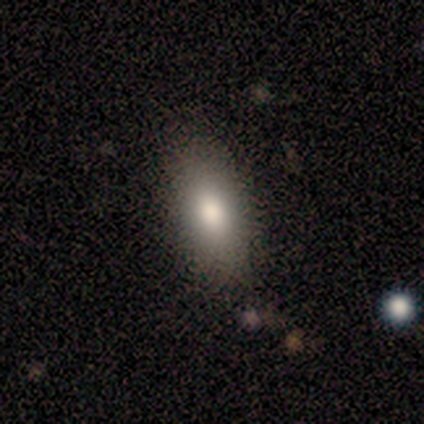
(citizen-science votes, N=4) Smooth or featured?
  - smooth: 100% *
  - featured or disk: 0%
  - star or artifact: 0%
How rounded?
  - in between: 100% *
  - round: 0%
  - cigar-shaped: 0%
Merging?
  - none: 75% *
  - minor disturbance: 25%
  - major disturbance: 0%
  - merger: 0%